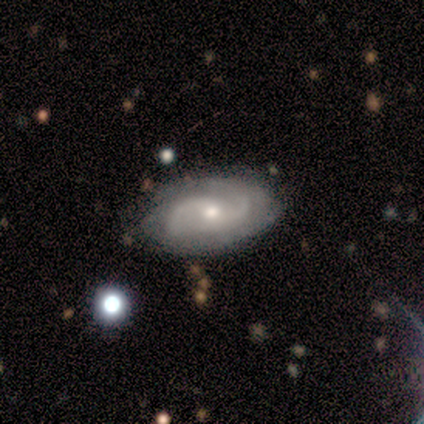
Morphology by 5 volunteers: Smooth or featured? 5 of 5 (100%) said featured or disk. Edge-on disk? 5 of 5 (100%) said no. Bar? 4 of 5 (80%) said no. Spiral arms? 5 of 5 (100%) said yes. Spiral winding? 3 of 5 (60%) said medium. Spiral arm count? 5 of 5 (100%) said 2. Bulge size? 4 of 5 (80%) said small. Merging? 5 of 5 (100%) said none.